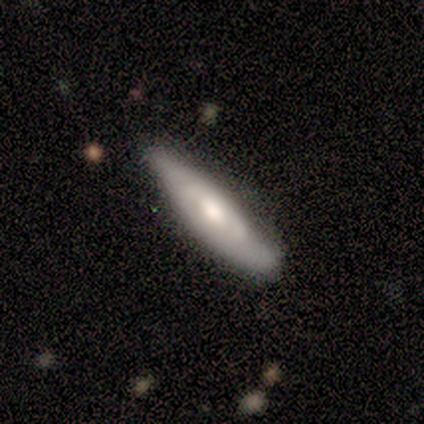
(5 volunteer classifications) Morphology: type=featured or disk (80%); edge-on=no (75%); bar=no (67%); spiral arms=yes (100%); winding=loose (67%); arm count=can't tell (67%); bulge=moderate (67%); merging=none (100%).